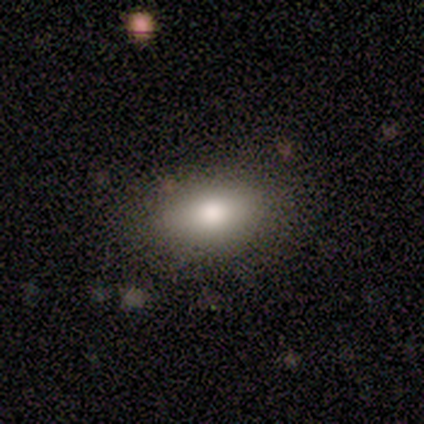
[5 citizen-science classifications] Smooth or featured: smooth — 100%
How rounded: in between — 100%
Merging: none — 80% (minor disturbance — 20%)